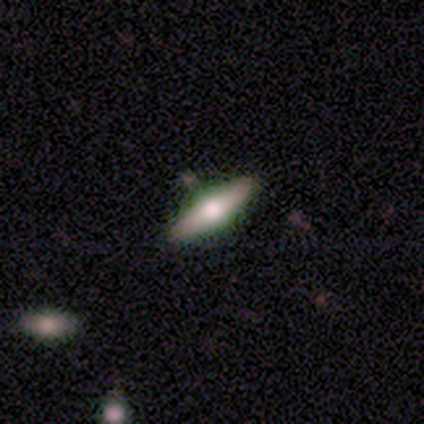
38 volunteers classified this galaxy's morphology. Smooth or featured? featured or disk (47%)
Edge-on disk? yes (89%)
Edge-on bulge? rounded (100%)
Merging? none (91%)